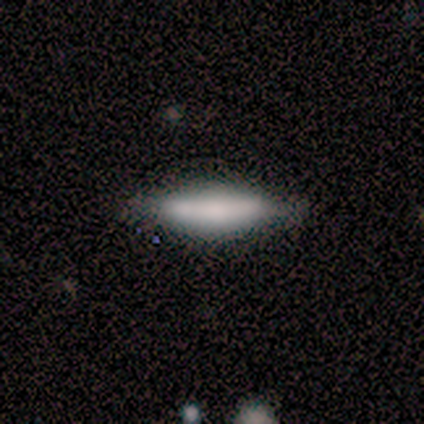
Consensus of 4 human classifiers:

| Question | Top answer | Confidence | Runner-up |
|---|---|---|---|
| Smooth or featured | smooth | 50% | featured or disk (25%) |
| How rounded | in between | 50% | tied: cigar-shaped (50%) |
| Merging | none | 100% | — |